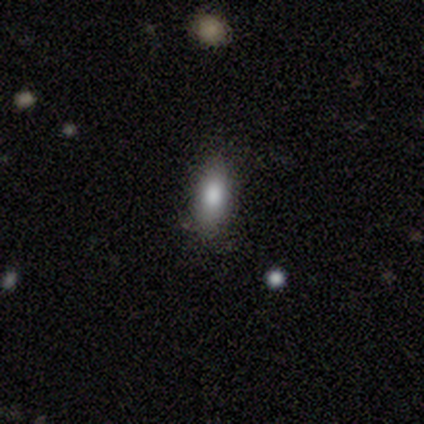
This is likely a smooth galaxy (60%). How rounded: likely in between (67%). Merging: likely none (60%).